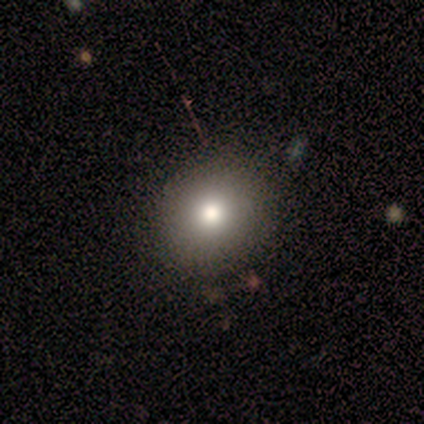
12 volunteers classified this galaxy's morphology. A smooth galaxy with no disk features (83%) that is round (70%).

Vote fractions:
- Smooth or featured? smooth: 83% / featured or disk: 8% / star or artifact: 8%
- How rounded? round: 70% / in between: 30% / cigar-shaped: 0%
- Merging? none: 91% / minor disturbance: 9% / major disturbance: 0% / merger: 0%